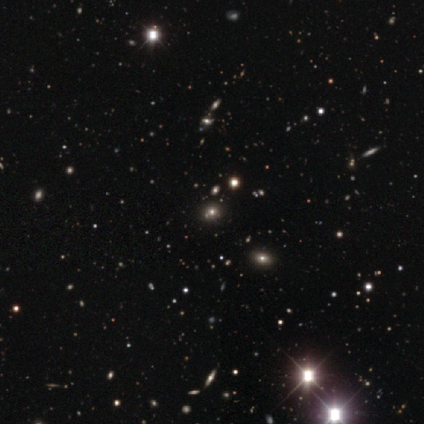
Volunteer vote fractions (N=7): Smooth or featured: star or artifact — 71% (smooth — 14%)